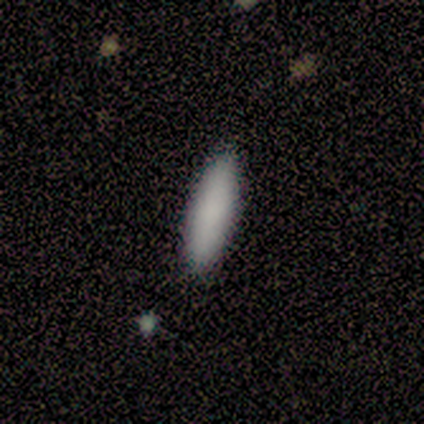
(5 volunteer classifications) Smooth or featured? 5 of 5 (100%) said smooth. How rounded? 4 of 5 (80%) said cigar-shaped. Merging? 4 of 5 (80%) said none.